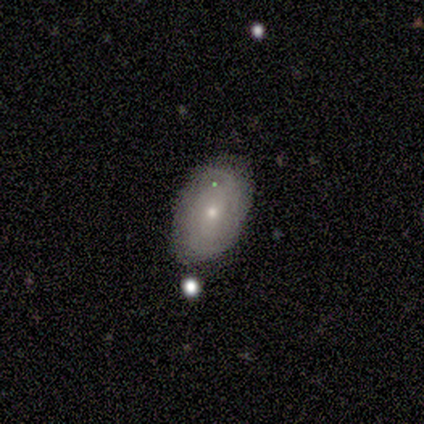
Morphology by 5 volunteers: This appears to be a featured or disk galaxy (60%) with no bar (67%), tight (100%) spiral arms (67%) and a moderate central bulge (67%). Merging: none (100%).